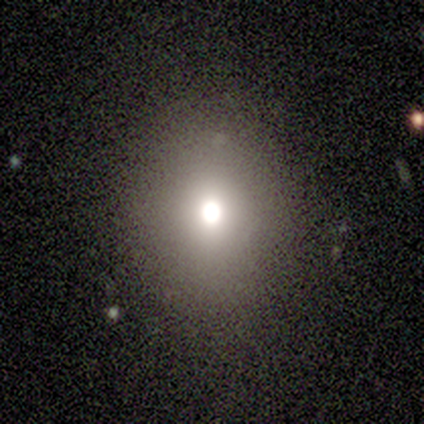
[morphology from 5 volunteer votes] This appears to be a star or artifact, not a galaxy (60%).